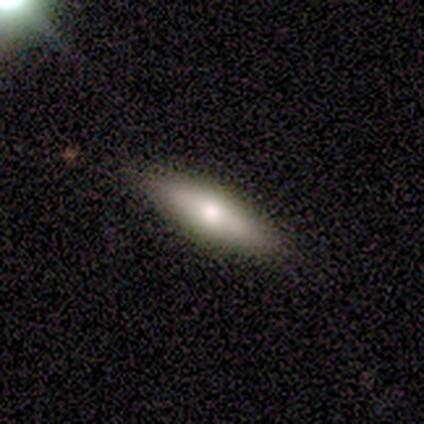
Overall: smooth (80%). How rounded: cigar-shaped (75%). Merging: none (100%).